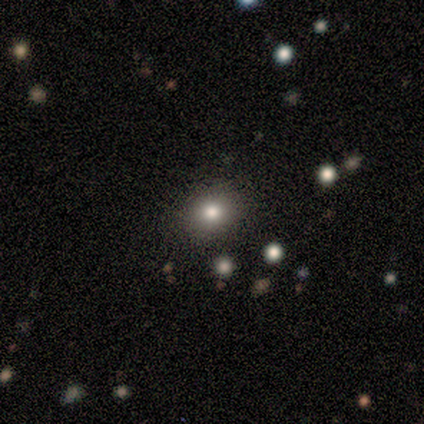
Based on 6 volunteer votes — Morphology: type=smooth (83%); roundness=in between (60%); merging=none (83%).